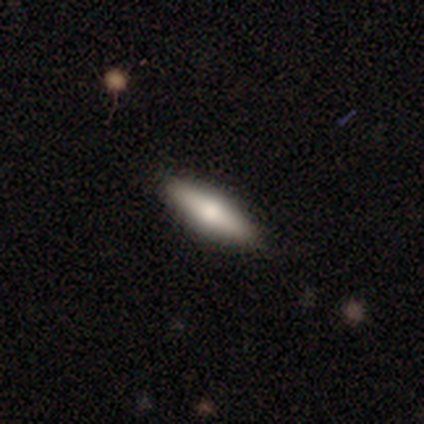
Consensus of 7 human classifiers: Overall: smooth (86%). How rounded: in between (50%, tied with cigar-shaped). Merging: none (100%).